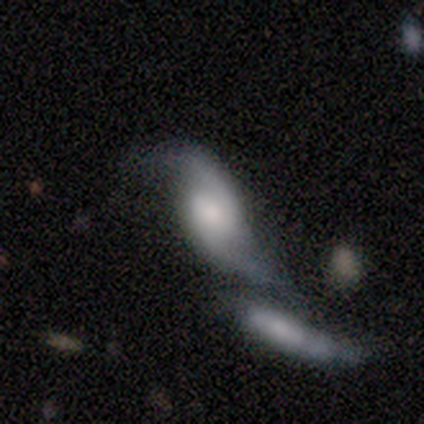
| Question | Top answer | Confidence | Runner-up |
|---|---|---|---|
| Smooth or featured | featured or disk | 62% | smooth (38%) |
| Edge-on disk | no | 100% | — |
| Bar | no | 60% | strong (20%) |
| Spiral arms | yes | 100% | — |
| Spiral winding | loose | 60% | medium (40%) |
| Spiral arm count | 2 | 80% | 1 (20%) |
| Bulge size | small | 40% | large (20%) |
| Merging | merger | 88% | none (12%) |